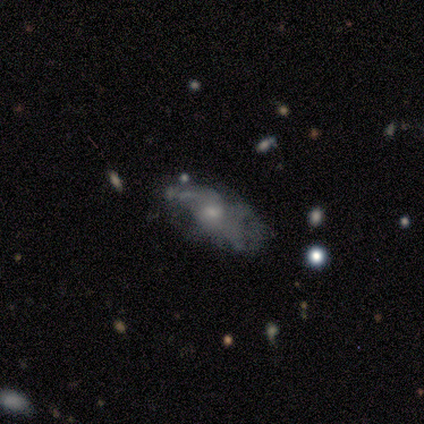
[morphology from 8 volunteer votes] Volunteers were most divided on "smooth or featured" (2-way tie): smooth: 50%, featured or disk: 50%, star or artifact: 0%; "merging" (2-way tie): none: 38%, minor disturbance: 38%, major disturbance: 25%, merger: 0%. More confident: how rounded — in between (75%).